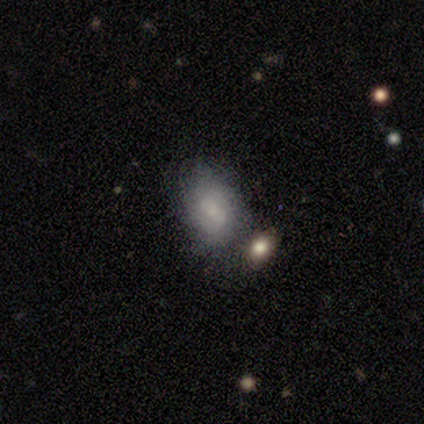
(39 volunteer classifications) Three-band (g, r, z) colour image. It shows a smooth galaxy with no disk features (72%) that is in between round and cigar-shaped (82%). Merging: none (50%).